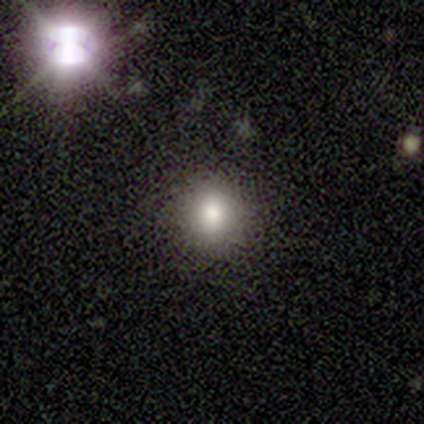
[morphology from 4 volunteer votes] This is clearly a smooth galaxy (100%). How rounded: likely round (75%). Merging: clearly none (100%).